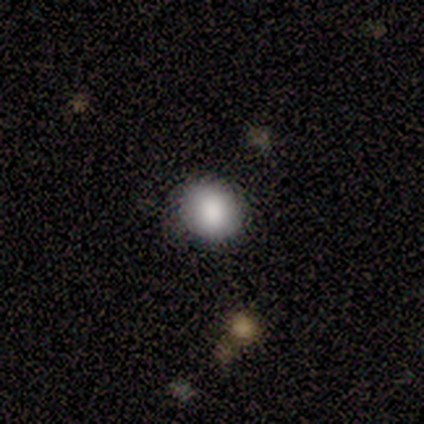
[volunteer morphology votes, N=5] smooth_or_featured: smooth (p=1.00)
how_rounded: round (p=0.80) [alt: in between p=0.20]
merging: none (p=0.80) [alt: minor disturbance p=0.20]